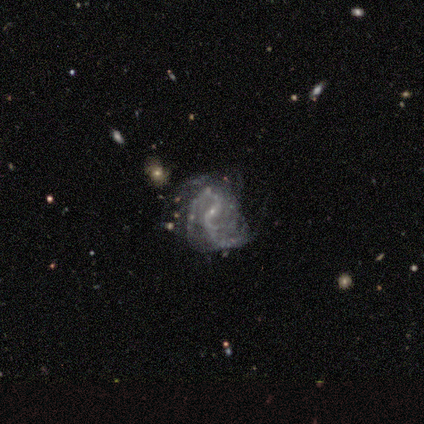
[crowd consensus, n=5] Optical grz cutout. It shows a featured or disk galaxy (100%) with a weak bar (40%, tied with no), 2 (40%, tied with 4) medium (60%) spiral arms (100%) and a small central bulge (80%). Merging: minor disturbance (80%).